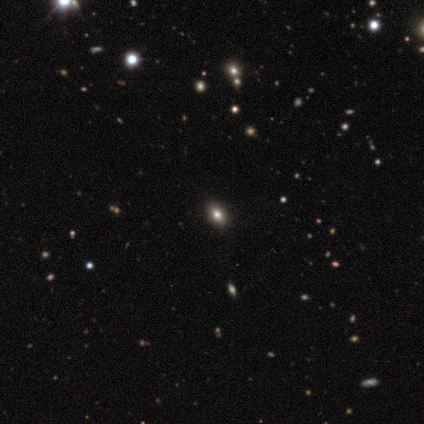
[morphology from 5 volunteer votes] Smooth or featured: smooth — 40% (tied with star or artifact — 40%)
How rounded: in between — 50% (tied with cigar-shaped — 50%)
Merging: none — 100%